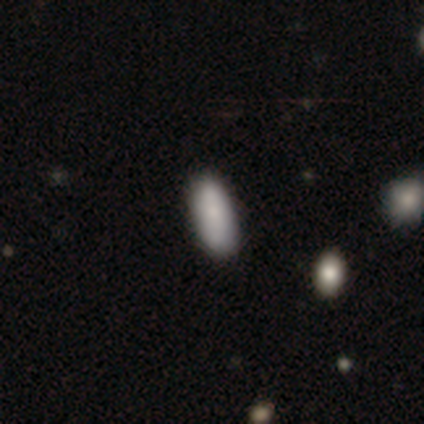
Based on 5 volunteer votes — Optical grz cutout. It shows a smooth galaxy with no disk features (60%) that is in between round and cigar-shaped (67%). Merging: minor disturbance (50%).